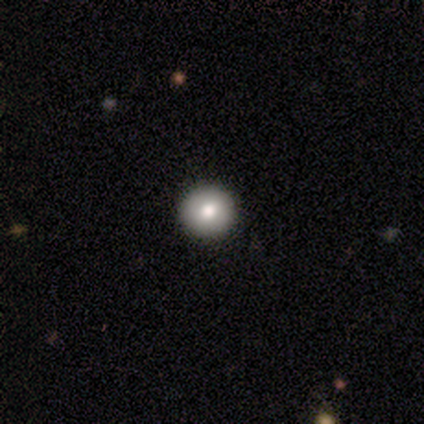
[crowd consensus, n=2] Smooth or featured: smooth — 50% (tied with star or artifact — 50%)
How rounded: round — 100%
Merging: none — 100%